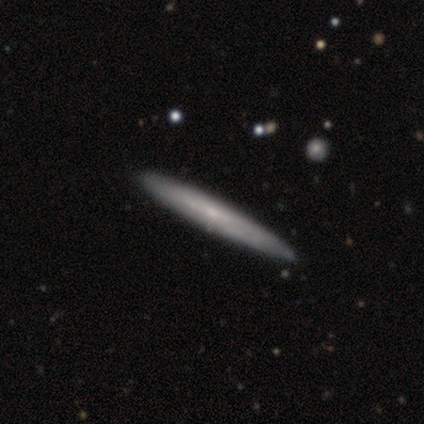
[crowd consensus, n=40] Smooth or featured?
  - featured or disk: 57% *
  - smooth: 40%
  - star or artifact: 2%
Edge-on disk?
  - yes: 91% *
  - no: 9%
Edge-on bulge?
  - none: 57% *
  - rounded: 43%
  - boxy: 0%
Merging?
  - none: 95% *
  - minor disturbance: 5%
  - major disturbance: 0%
  - merger: 0%